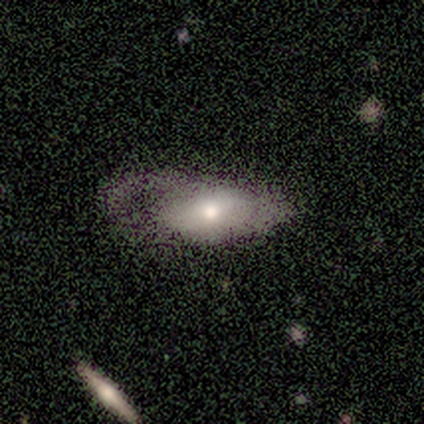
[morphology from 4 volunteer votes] smooth_or_featured: featured or disk (p=1.00)
disk_edge_on: no (p=1.00)
bar: no (p=0.50) [alt: strong p=0.25]
has_spiral_arms: no (p=0.75) [alt: yes p=0.25]
bulge_size: moderate (p=0.50) [alt: dominant p=0.25]
merging: major disturbance (p=0.75) [alt: minor disturbance p=0.25]